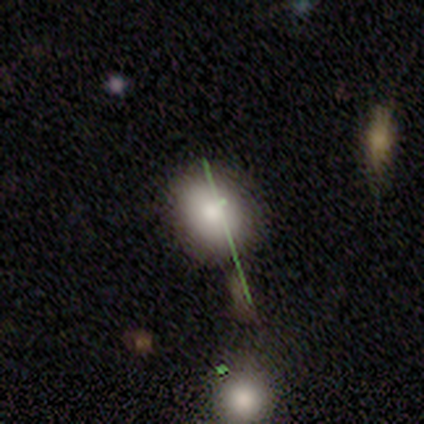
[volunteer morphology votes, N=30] smooth-or-featured: smooth: 67% | featured or disk: 17% | star or artifact: 17%
  how-rounded: round: 55% | in between: 45% | cigar-shaped: 0%
  merging: none: 84% | minor disturbance: 8% | merger: 8% | major disturbance: 0%